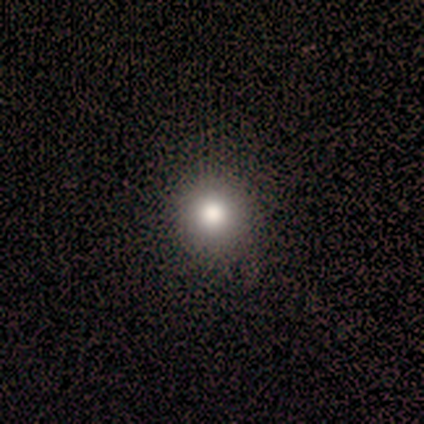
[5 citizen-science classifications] A smooth galaxy with no disk features (100%) that is round (100%). Merging: none (100%).